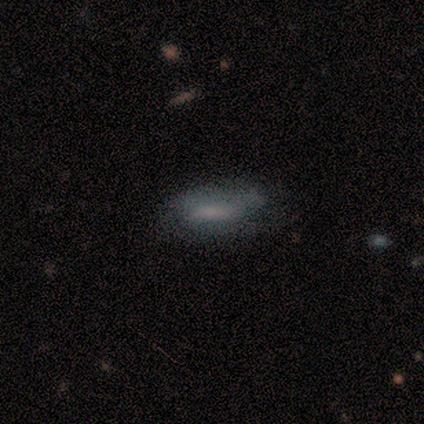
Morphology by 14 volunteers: This appears to be a smooth galaxy with no disk features (50%) that is in between round and cigar-shaped (86%). Merging: none (62%).